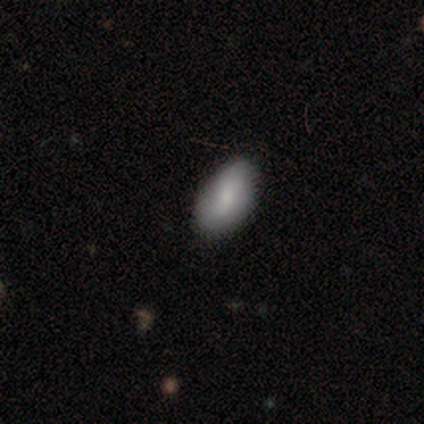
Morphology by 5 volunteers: smooth-or-featured: smooth: 100% | featured or disk: 0% | star or artifact: 0%
  how-rounded: in between: 100% | round: 0% | cigar-shaped: 0%
  merging: none: 100% | minor disturbance: 0% | major disturbance: 0% | merger: 0%